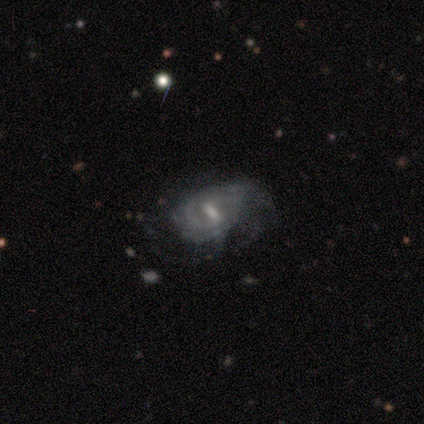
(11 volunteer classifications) This appears to be a featured or disk galaxy (100%) with a strong bar (45%, tied with weak), tight (45%) spiral arms (100%) and a small central bulge (45%). Merging: none (82%).